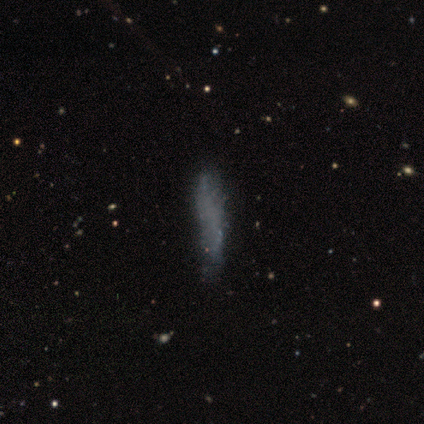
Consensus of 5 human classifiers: Morphology: type=featured or disk (80%); edge-on=yes (75%); edge-on bulge=none (67%); merging=none (100%).